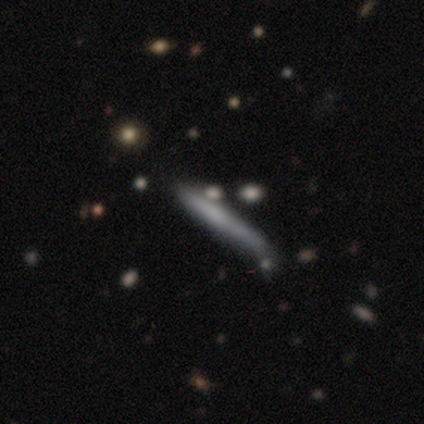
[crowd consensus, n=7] Smooth or featured?
  - featured or disk: 57% *
  - smooth: 43%
  - star or artifact: 0%
Edge-on disk?
  - yes: 75% *
  - no: 25%
Edge-on bulge?
  - none: 100% *
  - boxy: 0%
  - rounded: 0%
Merging?
  - none: 71% *
  - minor disturbance: 14%
  - major disturbance: 14%
  - merger: 0%